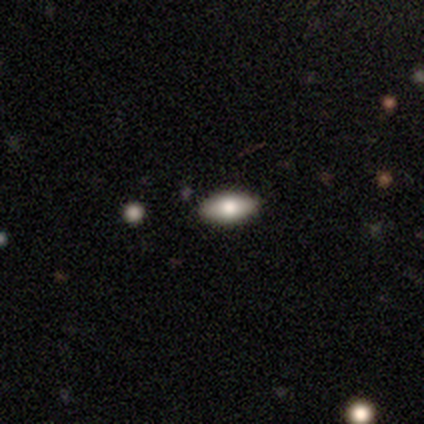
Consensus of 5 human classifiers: This is marginally a featured or disk galaxy (40%, tied with star or artifact). It is clearly not viewed edge-on (100%). Bar: clearly no (100%). Spiral arm pattern: clearly no (100%). Central bulge: clearly moderate (100%). Merging: clearly none (100%).